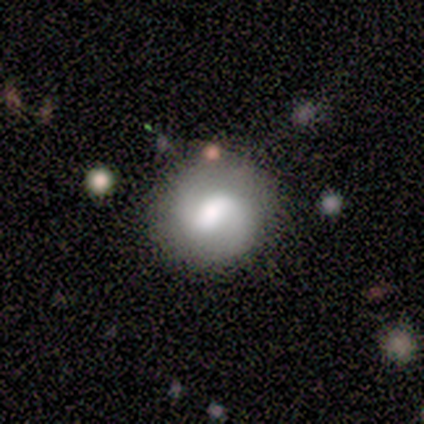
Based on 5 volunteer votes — Volunteers were most divided on "bar" (3-way tie): strong: 33%, weak: 33%, no: 33%. More confident: edge-on disk — no (100%); spiral arms — yes (100%); spiral winding — medium (100%); spiral arm count — 2 (100%); merging — none (80%); bulge size — moderate (67%); smooth or featured — featured or disk (60%).